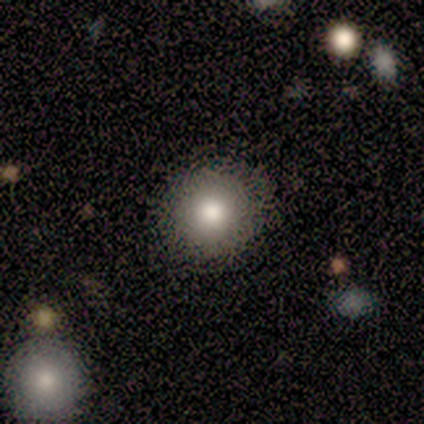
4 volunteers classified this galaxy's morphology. Overall: smooth (75%). How rounded: round (100%). Merging: none (67%; major disturbance 33%).